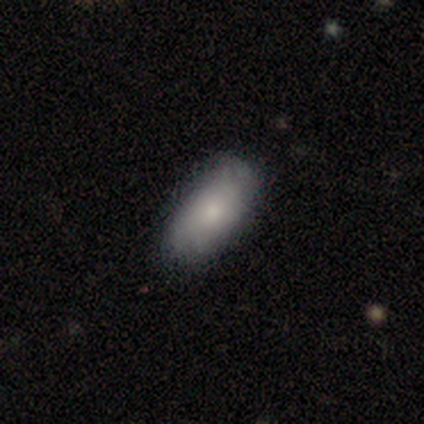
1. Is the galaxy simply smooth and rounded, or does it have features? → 73% smooth, 16% star or artifact, 11% featured or disk.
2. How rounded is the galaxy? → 89% in between, 11% cigar-shaped, 0% round.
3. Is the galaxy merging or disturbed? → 77% none, 13% minor disturbance, 6% major disturbance, 3% merger.